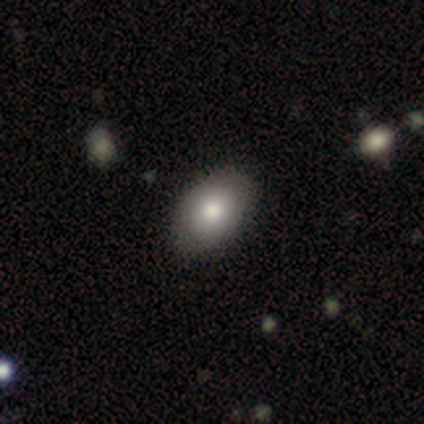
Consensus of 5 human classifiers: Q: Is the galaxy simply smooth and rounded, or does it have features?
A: smooth — 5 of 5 (100%).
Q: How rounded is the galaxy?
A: in between — 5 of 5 (100%).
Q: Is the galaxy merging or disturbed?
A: none — 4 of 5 (80%).